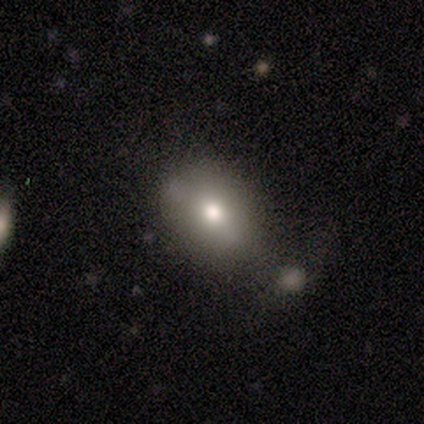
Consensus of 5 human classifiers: Morphology: type=smooth (60%); roundness=in between (100%); merging=none (50%).